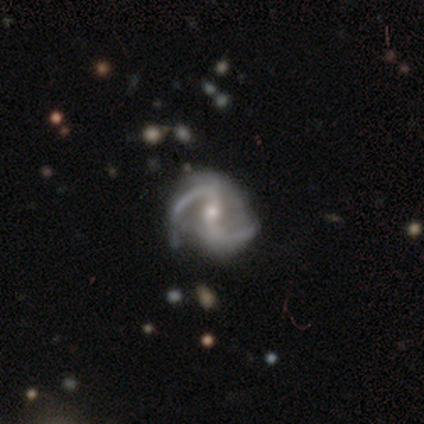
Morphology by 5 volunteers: Q: Smooth or featured?
A: featured or disk (80%); runner-up: star or artifact (20%)
Q: Edge-on disk?
A: no (100%)
Q: Bar?
A: weak (50%); tied with: no (50%)
Q: Spiral arms?
A: yes (100%)
Q: Spiral winding?
A: medium (50%); tied with: loose (50%)
Q: Spiral arm count?
A: 2 (100%)
Q: Bulge size?
A: moderate (100%)
Q: Merging?
A: none (100%)